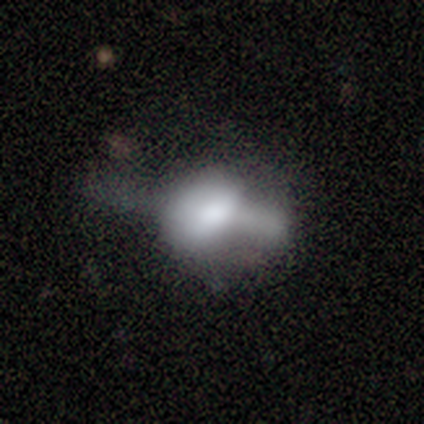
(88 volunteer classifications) A smooth galaxy with no disk features (51%) that is in between round and cigar-shaped (73%).

Vote fractions:
- Smooth or featured? smooth: 51% / featured or disk: 43% / star or artifact: 6%
- How rounded? in between: 73% / round: 20% / cigar-shaped: 7%
- Merging? major disturbance: 40% / none: 25% / minor disturbance: 24% / merger: 11%